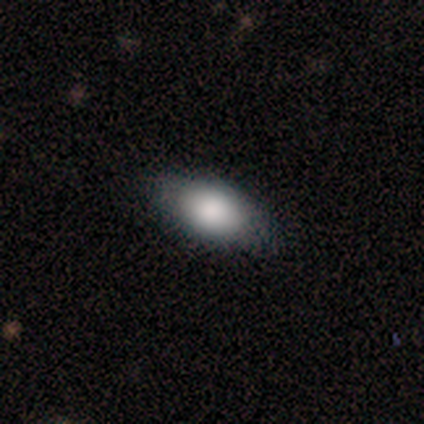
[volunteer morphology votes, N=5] Smooth or featured?
  - smooth: 100% *
  - featured or disk: 0%
  - star or artifact: 0%
How rounded?
  - in between: 100% *
  - round: 0%
  - cigar-shaped: 0%
Merging?
  - none: 60% *
  - minor disturbance: 40%
  - major disturbance: 0%
  - merger: 0%